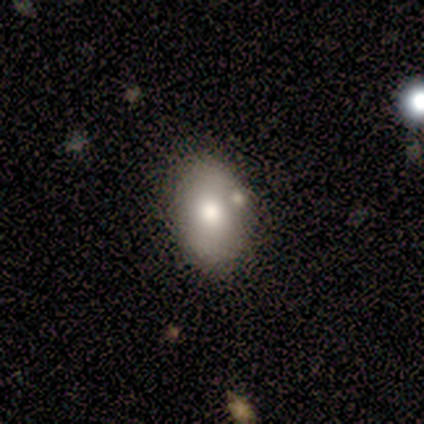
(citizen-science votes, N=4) smooth 100%, featured or disk 0%, star or artifact 0%. Down the decision tree: how rounded — in between (100%); merging — minor disturbance (75%).